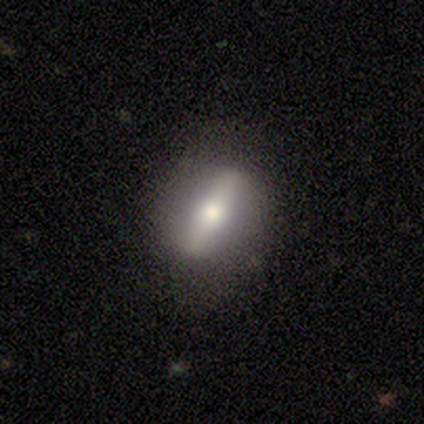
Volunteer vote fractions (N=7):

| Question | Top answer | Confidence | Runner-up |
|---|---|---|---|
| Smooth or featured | featured or disk | 57% | smooth (29%) |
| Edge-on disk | yes | 50% | tied: no (50%) |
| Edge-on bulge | rounded | 100% | — |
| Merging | none | 83% | minor disturbance (17%) |